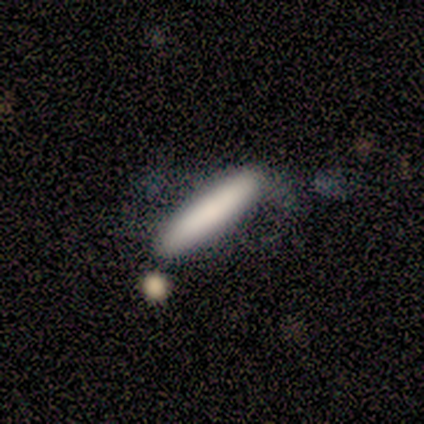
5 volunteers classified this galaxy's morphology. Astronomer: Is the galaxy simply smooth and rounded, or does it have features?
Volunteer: smooth — 80%.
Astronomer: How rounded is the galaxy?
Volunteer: cigar-shaped — 100%.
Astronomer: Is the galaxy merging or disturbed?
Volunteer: none — 40%, tied with merger at 40%.